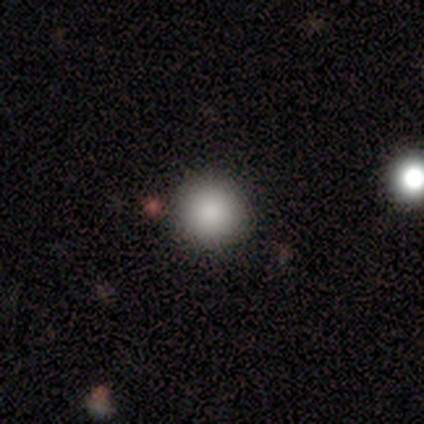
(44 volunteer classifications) Volunteers were most divided on "smooth or featured": smooth: 84%, star or artifact: 11%, featured or disk: 5%. More confident: how rounded — round (100%); merging — none (87%).